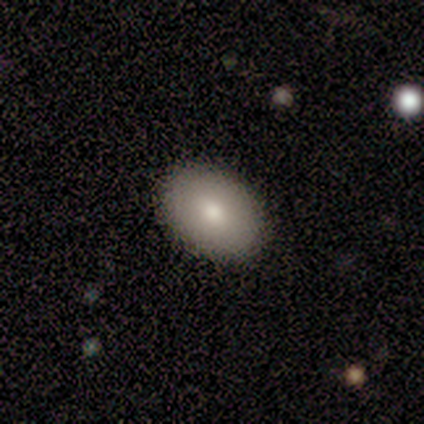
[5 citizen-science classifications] Smooth or featured? 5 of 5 (100%) said smooth. How rounded? 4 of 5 (80%) said in between. Merging? 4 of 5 (80%) said none.